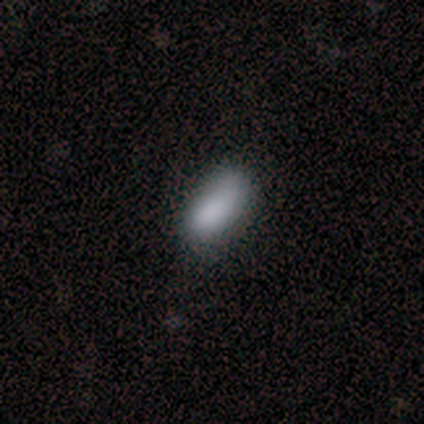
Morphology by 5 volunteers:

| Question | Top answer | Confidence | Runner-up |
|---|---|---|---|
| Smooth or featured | smooth | 100% | — |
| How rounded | in between | 100% | — |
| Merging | minor disturbance | 100% | — |